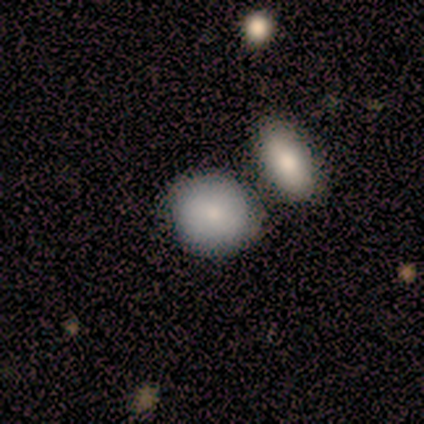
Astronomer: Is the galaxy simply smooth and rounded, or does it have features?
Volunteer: smooth — 80%.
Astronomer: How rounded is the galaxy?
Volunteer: round — 100%.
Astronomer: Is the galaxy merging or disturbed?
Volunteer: none — 50%, tied with merger at 50%.